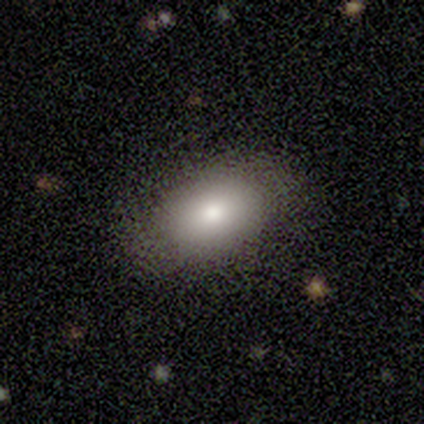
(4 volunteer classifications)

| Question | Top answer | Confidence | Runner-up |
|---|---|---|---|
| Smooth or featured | smooth | 75% | featured or disk (25%) |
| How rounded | in between | 100% | — |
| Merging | none | 100% | — |